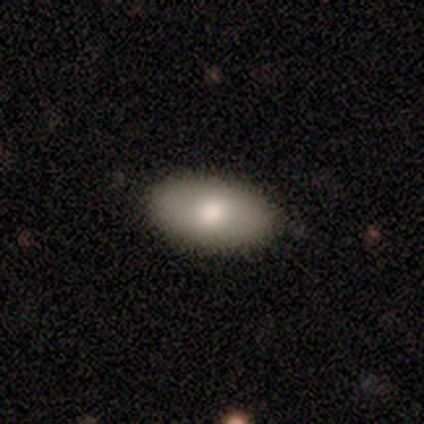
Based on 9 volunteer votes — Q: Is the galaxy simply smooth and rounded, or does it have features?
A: smooth — 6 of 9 (67%).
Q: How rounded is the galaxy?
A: in between — 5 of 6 (83%).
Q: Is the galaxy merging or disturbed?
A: none — 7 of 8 (88%).